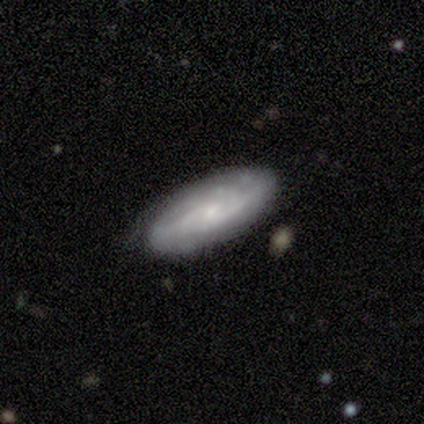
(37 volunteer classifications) Smooth or featured: featured or disk — 78% (smooth — 19%)
Edge-on disk: no — 79% (yes — 21%)
Bar: no — 52% (weak — 43%)
Spiral arms: yes — 91% (no — 9%)
Spiral winding: tight — 52% (medium — 33%)
Spiral arm count: can't tell — 48% (2 — 19%)
Bulge size: small — 65% (moderate — 22%)
Merging: none — 61% (minor disturbance — 28%)